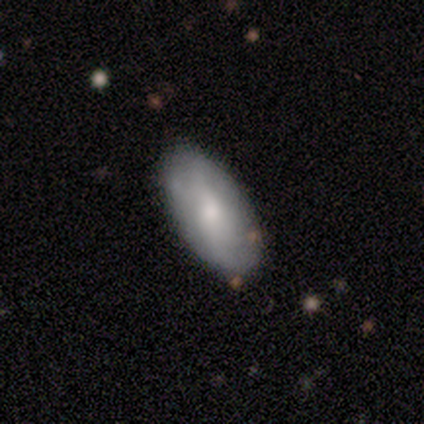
Consensus on every question: smooth or featured — featured or disk (100%); edge-on disk — no (100%); bar — no (100%); spiral arms — no (100%); bulge size — none (100%); merging — none (100%).